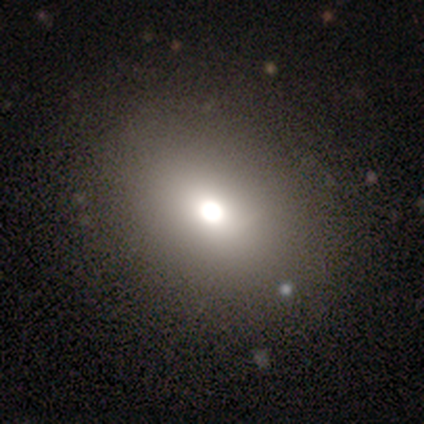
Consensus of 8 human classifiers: A smooth galaxy with no disk features (75%) that is round (67%). Merging: none (88%).